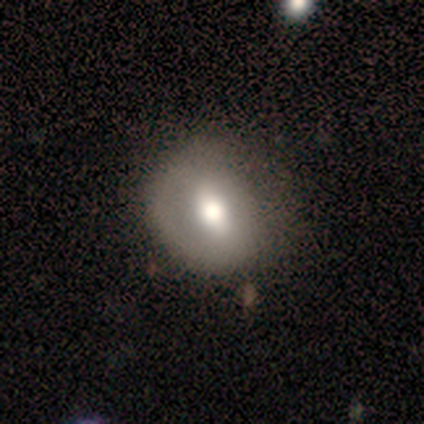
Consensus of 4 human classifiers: This appears to be a featured or disk galaxy (75%) with a weak bar (67%), no spiral arms (67%) and a moderate central bulge (67%). Merging: none (100%).